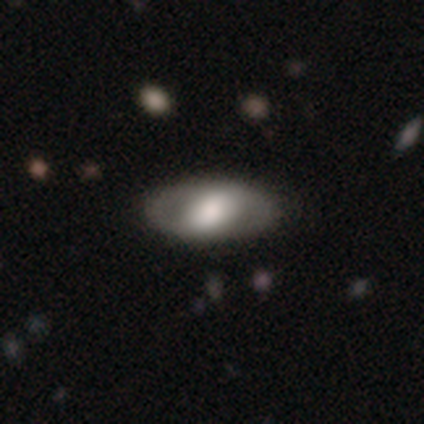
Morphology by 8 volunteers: Smooth or featured?
  - featured or disk: 50% *
  - smooth: 38%
  - star or artifact: 12%
Edge-on disk?
  - no: 75% *
  - yes: 25%
Bar?
  - strong: 33% * (tied)
  - weak: 33% * (tied)
  - no: 33% * (tied)
Spiral arms?
  - yes: 67% *
  - no: 33%
Spiral winding?
  - tight: 100% *
  - medium: 0%
  - loose: 0%
Spiral arm count?
  - 2: 100% *
  - 1: 0%
  - 3: 0%
  - 4: 0%
  - more than 4: 0%
  - can't tell: 0%
Bulge size?
  - moderate: 67% *
  - large: 33%
  - dominant: 0%
  - small: 0%
  - none: 0%
Merging?
  - none: 100% *
  - minor disturbance: 0%
  - major disturbance: 0%
  - merger: 0%